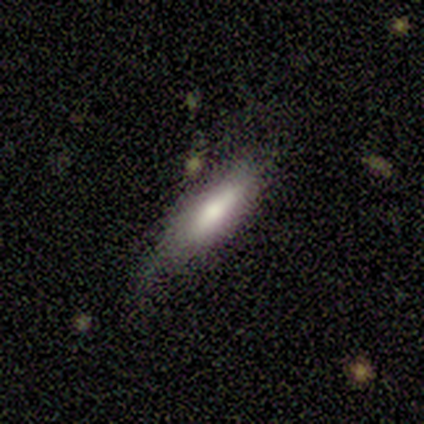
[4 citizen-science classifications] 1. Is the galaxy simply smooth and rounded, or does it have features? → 100% smooth, 0% featured or disk, 0% star or artifact.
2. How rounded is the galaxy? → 75% cigar-shaped, 25% in between, 0% round.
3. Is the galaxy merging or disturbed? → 50% none (tied), 50% minor disturbance (tied), 0% major disturbance, 0% merger.